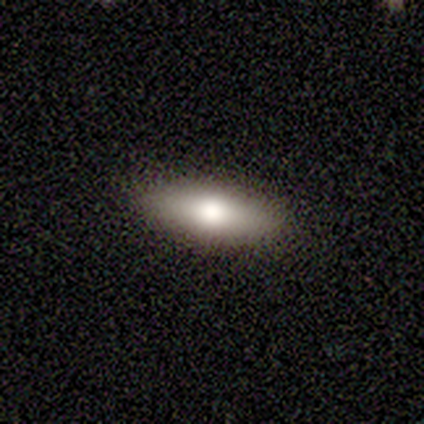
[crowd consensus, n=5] A smooth galaxy with no disk features (60%) that is in between round and cigar-shaped (67%). Merging: none (100%).